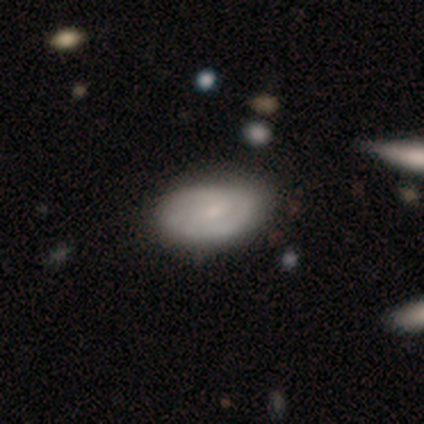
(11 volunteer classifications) Overall: featured or disk (73%). Edge-on disk: no (88%). Bar: weak (57%; no 43%). Spiral arms: yes (71%). Spiral arm count: 2 (100%). Spiral winding: tight (60%; medium 40%). Bulge size: small (43%; moderate 29%). Merging: none (82%).